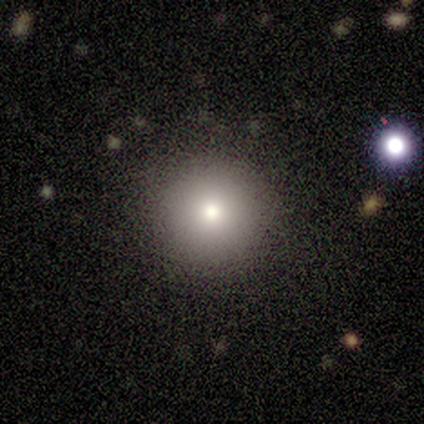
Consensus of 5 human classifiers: smooth_or_featured: smooth (p=0.60) [alt: star or artifact p=0.40]
how_rounded: round (p=1.00)
merging: none (p=1.00)